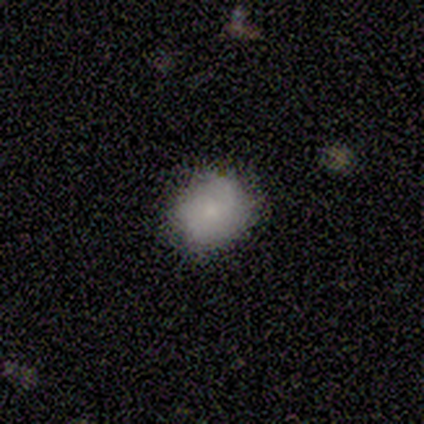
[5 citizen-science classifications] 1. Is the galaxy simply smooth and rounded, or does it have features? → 40% smooth (tied), 40% featured or disk (tied), 20% star or artifact.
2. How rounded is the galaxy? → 100% round, 0% in between, 0% cigar-shaped.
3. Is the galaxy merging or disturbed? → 100% none, 0% minor disturbance, 0% major disturbance, 0% merger.